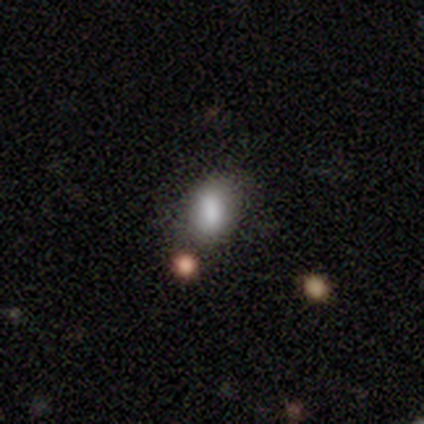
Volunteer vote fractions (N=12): Overall: smooth (92%). How rounded: in between (82%). Merging: none (64%; minor disturbance 27%).